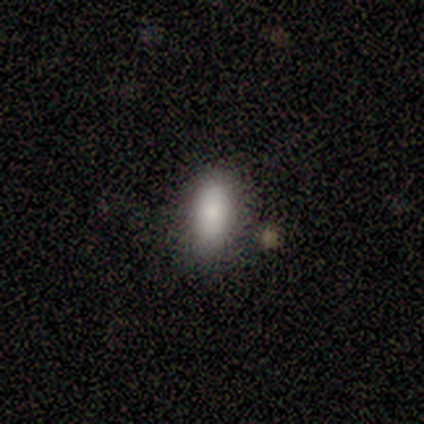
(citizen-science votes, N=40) This is clearly a smooth galaxy (92%). How rounded: clearly in between (81%). Merging: likely none (65%).